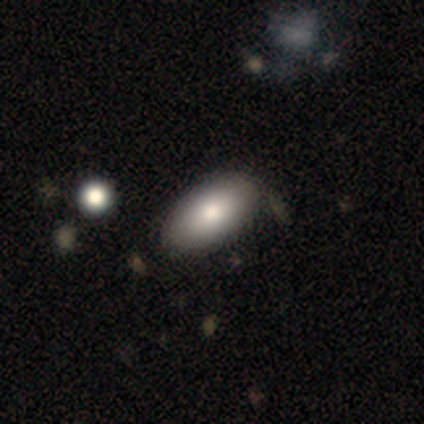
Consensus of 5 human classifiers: smooth 60%, featured or disk 20%, star or artifact 20%. Down the decision tree: how rounded — in between (67%); merging — none (75%).